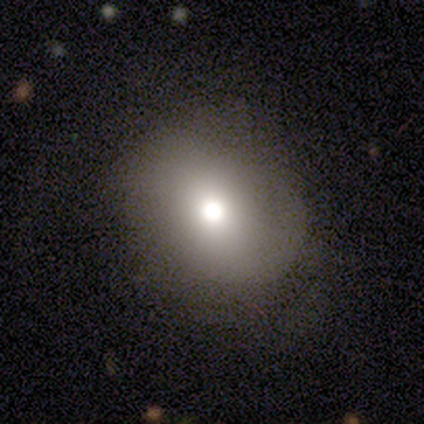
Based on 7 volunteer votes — Morphology: type=smooth (86%); roundness=round (50%, tied with in between); merging=none (100%).